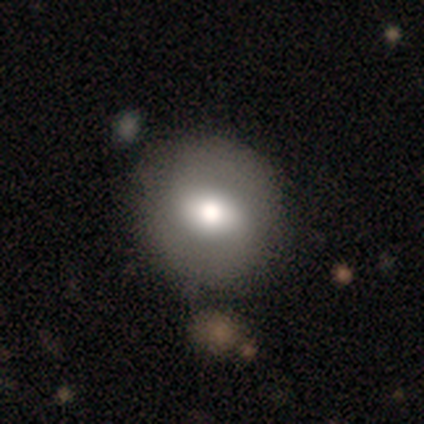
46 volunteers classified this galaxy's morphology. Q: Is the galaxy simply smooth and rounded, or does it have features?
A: smooth — 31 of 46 (67%).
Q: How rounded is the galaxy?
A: round — 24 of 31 (77%).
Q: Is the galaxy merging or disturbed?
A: none — 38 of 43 (88%).